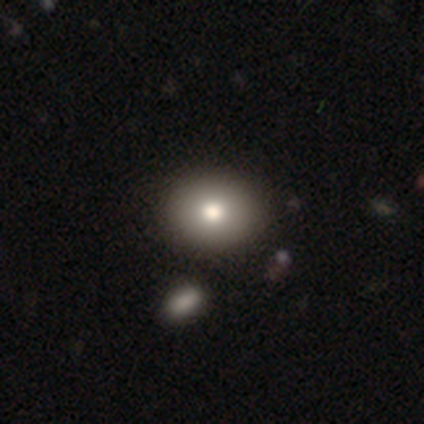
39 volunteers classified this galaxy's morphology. A smooth galaxy with no disk features (85%) that is round (64%). Merging: none (64%).